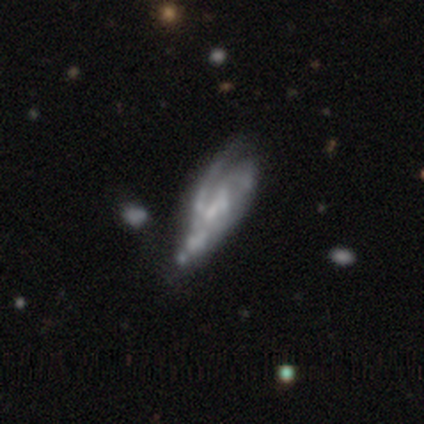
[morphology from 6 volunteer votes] Overall: featured or disk (100%). Edge-on disk: no (83%). Bar: no (60%; strong 20%). Spiral arms: yes (80%). Spiral arm count: can't tell (50%; 1 25%). Spiral winding: medium (75%). Bulge size: none (60%; small 40%). Merging: major disturbance (83%).